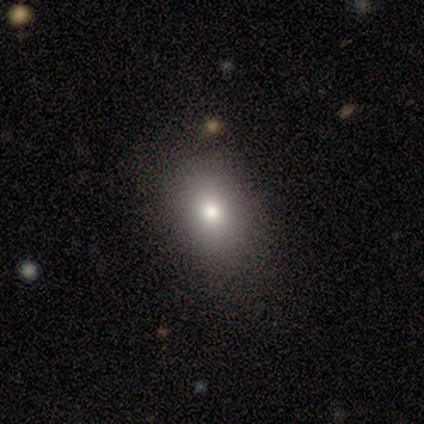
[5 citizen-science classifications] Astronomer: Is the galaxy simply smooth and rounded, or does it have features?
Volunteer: smooth — 60% (runner-up: featured or disk, 40%).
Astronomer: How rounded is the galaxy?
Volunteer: in between — 67%.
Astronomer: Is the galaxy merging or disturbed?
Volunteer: none — 100%.